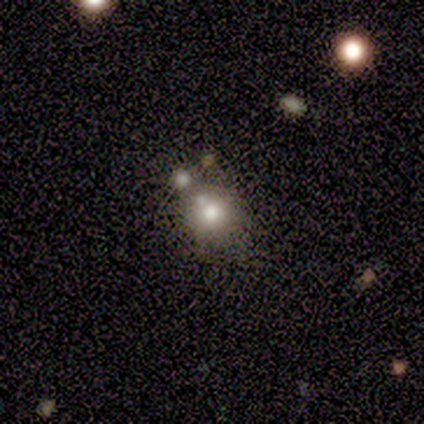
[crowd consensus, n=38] Overall: smooth (55%; star or artifact 29%). How rounded: round (76%). Merging: none (67%).